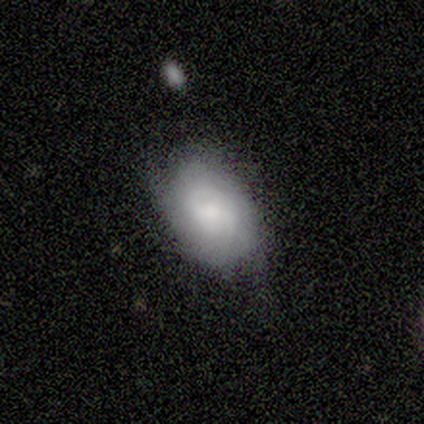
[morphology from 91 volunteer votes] Smooth or featured? smooth (56%)
How rounded? in between (80%)
Merging? none (69%)